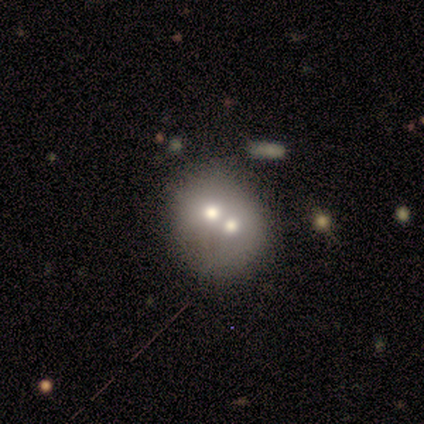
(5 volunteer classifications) Smooth or featured? featured or disk (60%)
Edge-on disk? no (100%)
Bar? no (100%)
Spiral arms? no (100%)
Bulge size? moderate (67%)
Merging? merger (80%)